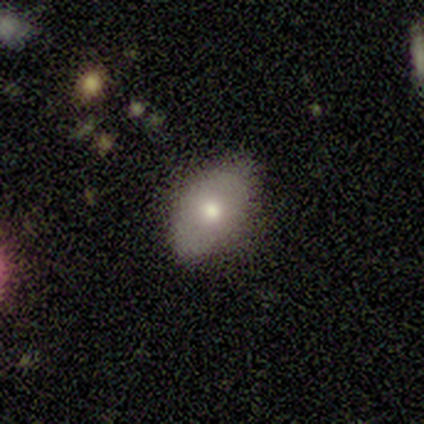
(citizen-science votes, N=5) Smooth or featured? 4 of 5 (80%) said smooth. How rounded? 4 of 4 (100%) said in between. Merging? 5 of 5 (100%) said none.